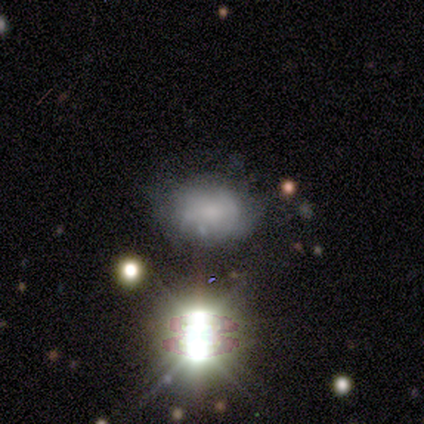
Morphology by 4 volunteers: type=smooth (50%, tied with star or artifact); roundness=in between (100%); merging=minor disturbance (100%).